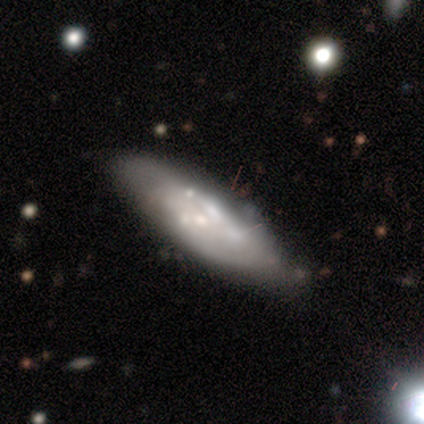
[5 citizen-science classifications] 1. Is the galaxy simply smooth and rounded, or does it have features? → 80% featured or disk, 20% smooth, 0% star or artifact.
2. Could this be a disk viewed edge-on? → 75% no, 25% yes.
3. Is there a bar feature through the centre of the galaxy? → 100% no, 0% strong, 0% weak.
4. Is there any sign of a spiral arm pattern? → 67% no, 33% yes.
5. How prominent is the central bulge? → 100% small, 0% dominant, 0% large, 0% moderate, 0% none.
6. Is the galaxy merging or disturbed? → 80% none, 20% merger, 0% minor disturbance, 0% major disturbance.